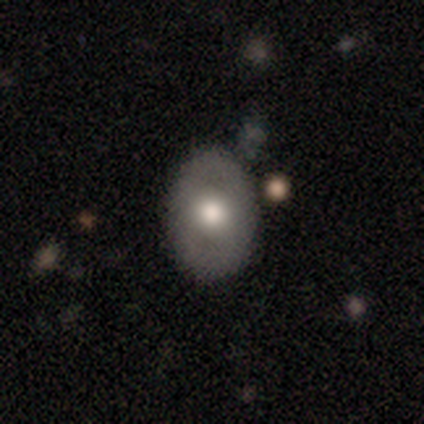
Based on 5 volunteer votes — Smooth or featured? featured or disk (80%)
Edge-on disk? no (100%)
Bar? no (75%)
Spiral arms? no (100%)
Bulge size? moderate (75%)
Merging? none (100%)